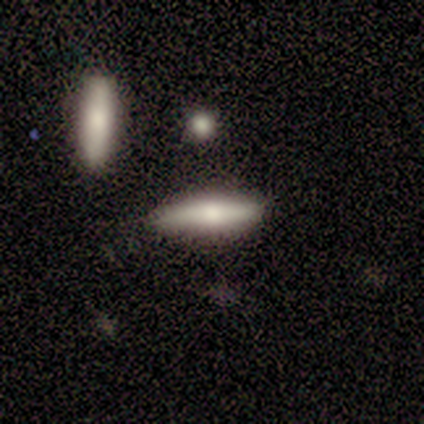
Overall: smooth (60%; featured or disk 40%). How rounded: cigar-shaped (100%). Merging: none (80%).